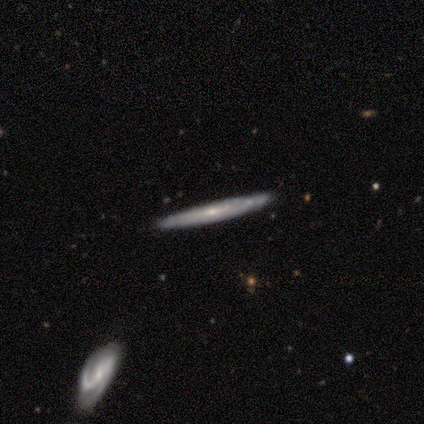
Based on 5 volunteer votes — Smooth or featured? 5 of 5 (100%) said featured or disk. Edge-on disk? 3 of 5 (60%) said no. Bar? 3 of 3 (100%) said no. Spiral arms? 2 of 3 (67%) said yes. Spiral winding? 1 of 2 (50%, tied with medium) said tight. Spiral arm count? 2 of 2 (100%) said can't tell. Bulge size? 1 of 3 (33%, tied with small and none) said moderate. Merging? 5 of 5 (100%) said none.